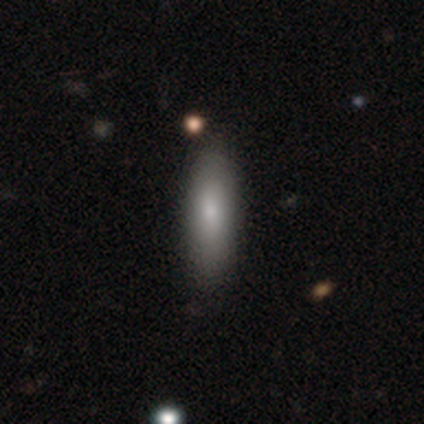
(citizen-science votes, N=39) smooth_or_featured: smooth (p=0.82) [alt: featured or disk p=0.15]
how_rounded: cigar-shaped (p=0.56) [alt: in between p=0.44]
merging: none (p=0.53) [alt: minor disturbance p=0.11]